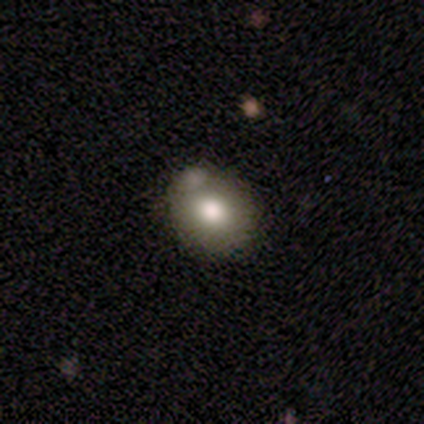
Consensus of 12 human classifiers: Morphology: type=smooth (50%); roundness=round (83%); merging=minor disturbance (45%).